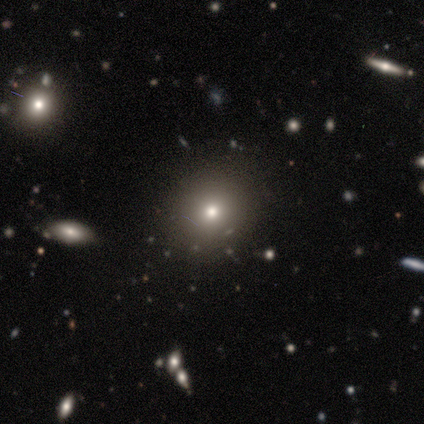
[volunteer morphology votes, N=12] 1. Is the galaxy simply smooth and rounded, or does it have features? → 67% smooth, 17% featured or disk, 17% star or artifact.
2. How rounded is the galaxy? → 75% round, 25% in between, 0% cigar-shaped.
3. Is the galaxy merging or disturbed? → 90% none, 10% minor disturbance, 0% major disturbance, 0% merger.